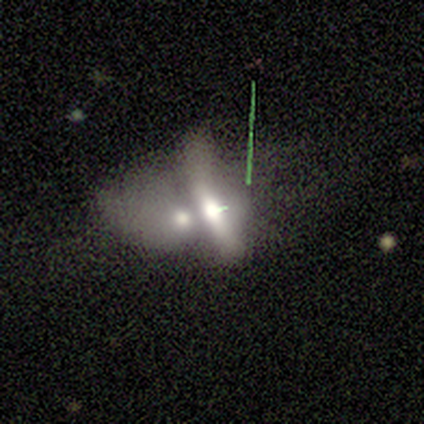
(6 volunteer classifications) This is clearly a smooth galaxy (83%). How rounded: clearly in between (100%). Merging: clearly merger (83%).